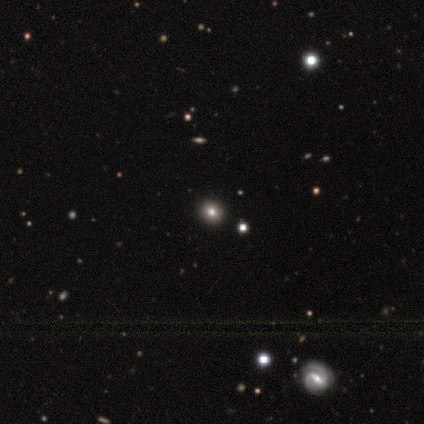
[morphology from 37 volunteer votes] A smooth galaxy with no disk features (54%) that is round (75%). Merging: none (100%).